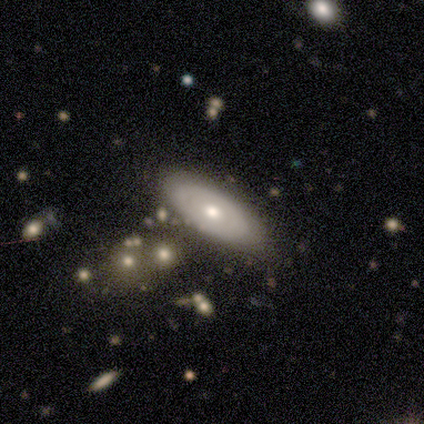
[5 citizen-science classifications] Overall: smooth (40%, tied with featured or disk). How rounded: in between (100%). Merging: none (100%).